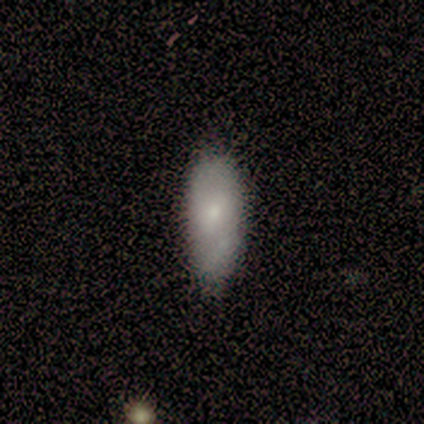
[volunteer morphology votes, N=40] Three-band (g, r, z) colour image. It shows a smooth galaxy with no disk features (78%) that is in between round and cigar-shaped (81%). Merging: none (38%).